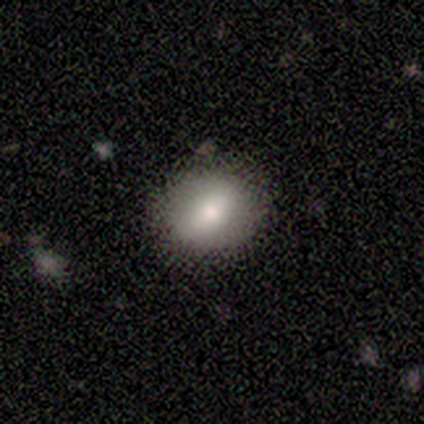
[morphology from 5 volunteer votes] Smooth or featured?
  - smooth: 80% *
  - featured or disk: 20%
  - star or artifact: 0%
How rounded?
  - round: 75% *
  - in between: 25%
  - cigar-shaped: 0%
Merging?
  - none: 100% *
  - minor disturbance: 0%
  - major disturbance: 0%
  - merger: 0%